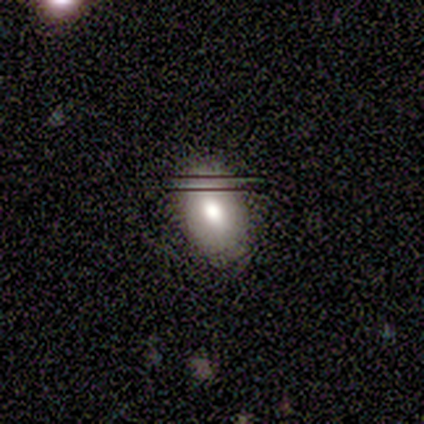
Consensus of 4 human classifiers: Morphology: type=smooth (75%); roundness=in between (100%); merging=none (67%).